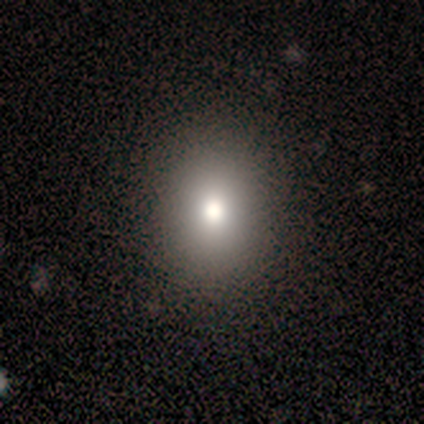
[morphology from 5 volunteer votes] A smooth galaxy with no disk features (60%) that is in between round and cigar-shaped (67%). Merging: none (67%).